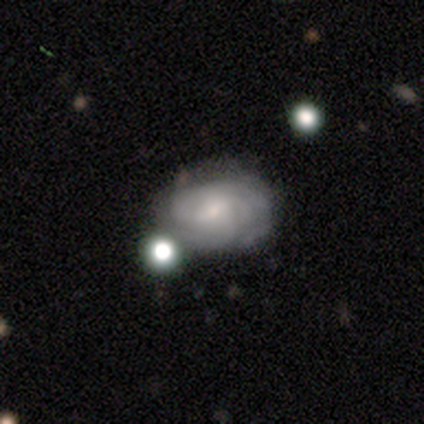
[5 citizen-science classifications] Smooth or featured? featured or disk (100%)
Edge-on disk? no (100%)
Bar? weak (80%)
Spiral arms? yes (100%)
Spiral winding? tight (80%)
Spiral arm count? can't tell (80%)
Bulge size? small (80%)
Merging? none (60%)